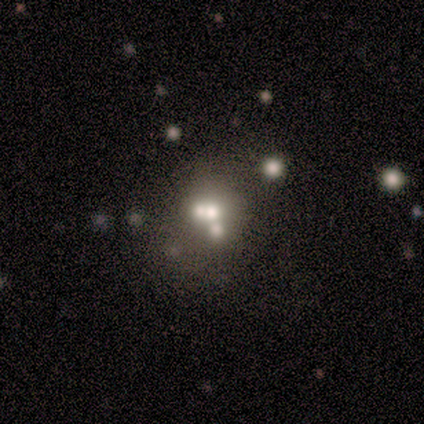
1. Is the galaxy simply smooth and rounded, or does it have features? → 43% smooth, 29% featured or disk, 29% star or artifact.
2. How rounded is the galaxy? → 67% round, 33% in between, 0% cigar-shaped.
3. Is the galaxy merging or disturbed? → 45% merger, 35% none, 15% major disturbance, 5% minor disturbance.